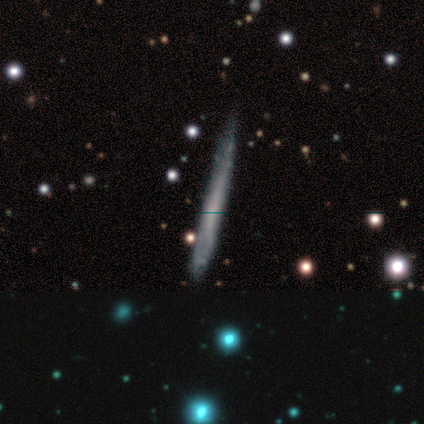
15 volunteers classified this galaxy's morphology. smooth_or_featured: smooth (p=0.53) [alt: featured or disk p=0.40]
how_rounded: cigar-shaped (p=1.00)
merging: none (p=0.64) [alt: minor disturbance p=0.21]